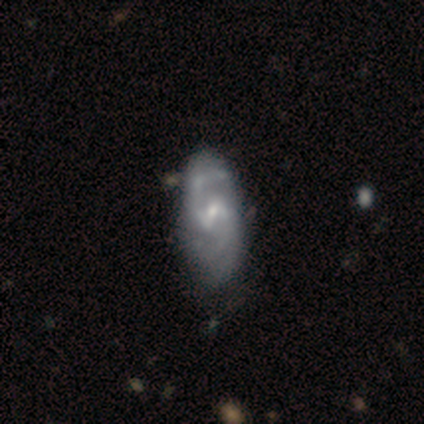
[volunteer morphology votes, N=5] Volunteers were most divided on "merging": none: 60%, minor disturbance: 40%, major disturbance: 0%, merger: 0%. More confident: edge-on disk — no (100%); bulge size — small (100%); smooth or featured — featured or disk (80%); bar — weak (75%); spiral arms — yes (75%); spiral winding — medium (67%); spiral arm count — 2 (67%).